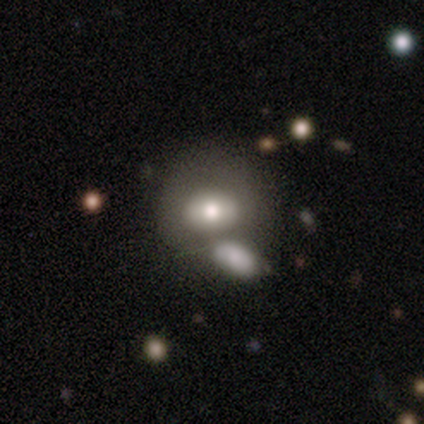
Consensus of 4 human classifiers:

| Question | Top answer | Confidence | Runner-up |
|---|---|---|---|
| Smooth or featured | smooth | 75% | featured or disk (25%) |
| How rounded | round | 67% | in between (33%) |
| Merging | none | 50% | tied: merger (50%) |